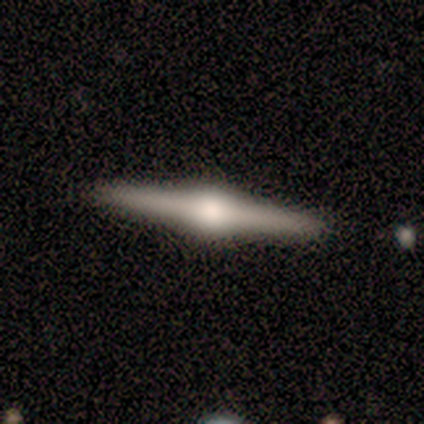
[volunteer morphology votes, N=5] A featured or disk galaxy (100%) viewed edge-on (100%) with a rounded central bulge (100%).

Vote fractions:
- Smooth or featured? featured or disk: 100% / smooth: 0% / star or artifact: 0%
- Edge-on disk? yes: 100% / no: 0%
- Edge-on bulge? rounded: 100% / boxy: 0% / none: 0%
- Merging? none: 80% / minor disturbance: 20% / major disturbance: 0% / merger: 0%